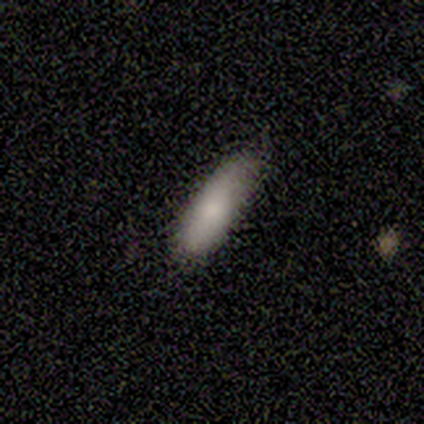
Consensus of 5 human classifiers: smooth_or_featured: smooth (p=1.00)
how_rounded: cigar-shaped (p=0.80) [alt: in between p=0.20]
merging: none (p=1.00)